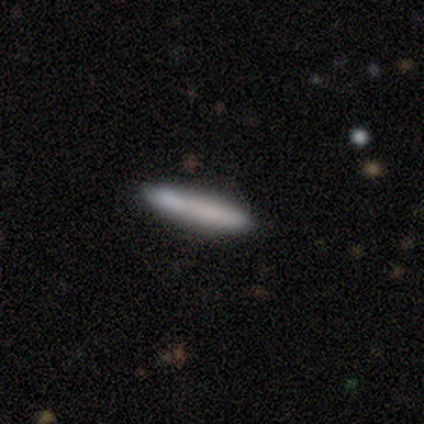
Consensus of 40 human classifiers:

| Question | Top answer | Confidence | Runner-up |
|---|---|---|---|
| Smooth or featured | smooth | 80% | featured or disk (20%) |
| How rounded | cigar-shaped | 94% | in between (6%) |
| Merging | none | 80% | minor disturbance (15%) |